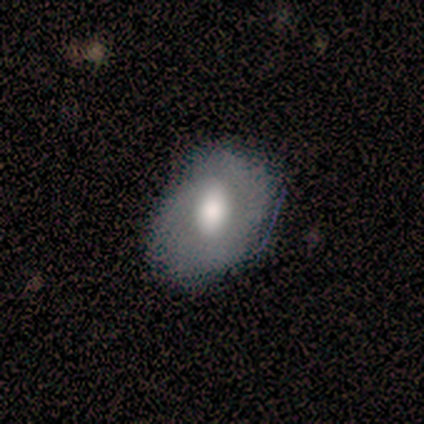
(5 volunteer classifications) Morphology: type=smooth (60%); roundness=in between (67%); merging=none (80%).